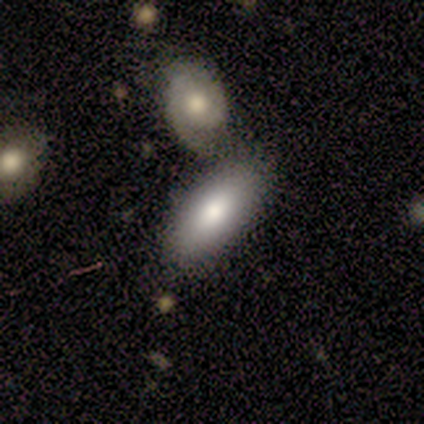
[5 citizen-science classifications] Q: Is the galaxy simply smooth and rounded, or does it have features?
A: smooth — 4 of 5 (80%).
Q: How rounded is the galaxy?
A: in between — 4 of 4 (100%).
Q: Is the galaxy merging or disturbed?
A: none — 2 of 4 (50%).